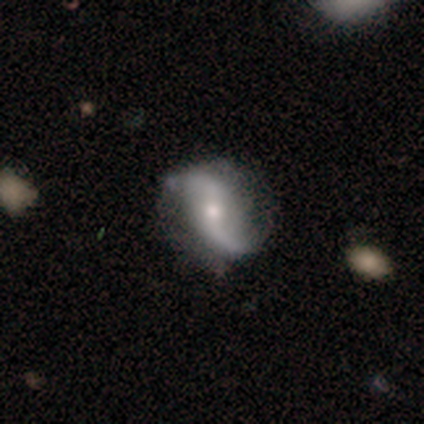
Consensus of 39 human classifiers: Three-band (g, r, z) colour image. It shows a featured or disk galaxy (85%) with a weak bar (53%), 2 (93%) loose (90%) spiral arms (94%) and a small central bulge (56%). Merging: none (58%).